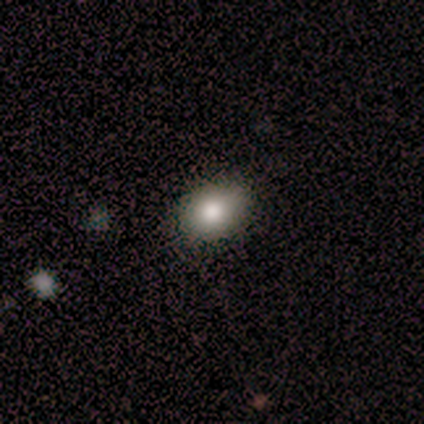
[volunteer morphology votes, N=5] Smooth or featured?
  - smooth: 80% *
  - featured or disk: 20%
  - star or artifact: 0%
How rounded?
  - in between: 75% *
  - round: 25%
  - cigar-shaped: 0%
Merging?
  - none: 100% *
  - minor disturbance: 0%
  - major disturbance: 0%
  - merger: 0%